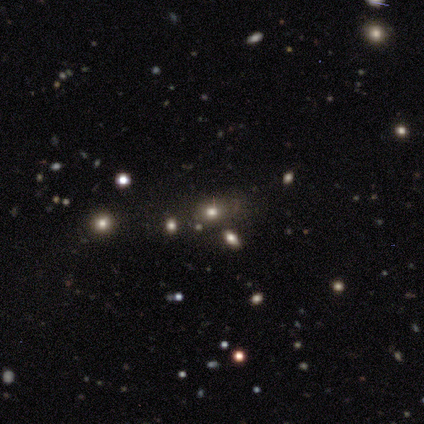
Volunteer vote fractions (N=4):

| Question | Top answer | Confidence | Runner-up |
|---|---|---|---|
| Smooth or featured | smooth | 75% | featured or disk (25%) |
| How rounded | in between | 100% | — |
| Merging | none | 75% | minor disturbance (25%) |